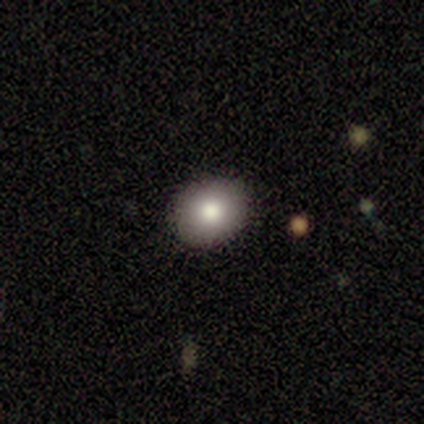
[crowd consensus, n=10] Smooth or featured: smooth — 70% (featured or disk — 20%)
How rounded: in between — 57% (round — 43%)
Merging: none — 89% (minor disturbance — 11%)